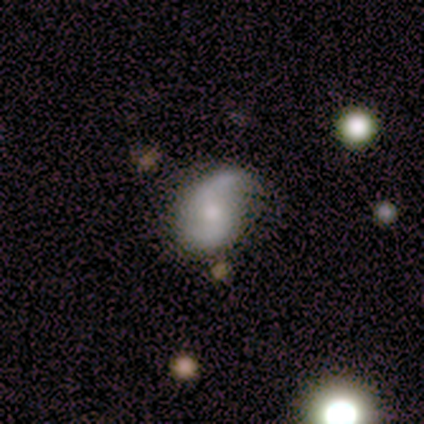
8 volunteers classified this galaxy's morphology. type=featured or disk (88%); edge-on=no (100%); bar=no (57%); spiral arms=yes (100%); winding=loose (71%); arm count=2 (86%); bulge=moderate (71%); merging=none (43%, tied with minor disturbance).